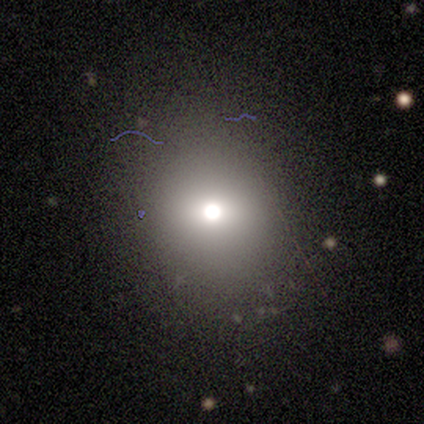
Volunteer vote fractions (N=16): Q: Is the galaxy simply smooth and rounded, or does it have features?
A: smooth — 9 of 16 (56%).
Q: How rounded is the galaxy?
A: round — 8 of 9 (89%).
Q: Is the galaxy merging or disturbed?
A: none — 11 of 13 (85%).